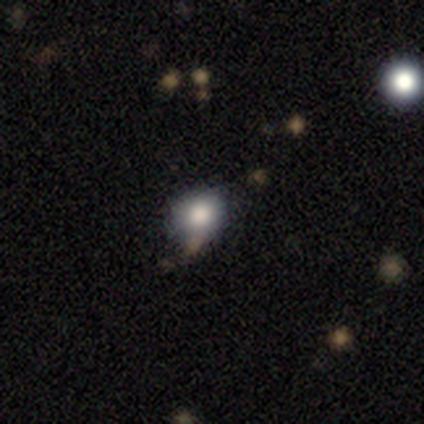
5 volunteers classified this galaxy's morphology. This appears to be a smooth galaxy with no disk features (100%) that is round (60%). Merging: none (100%).